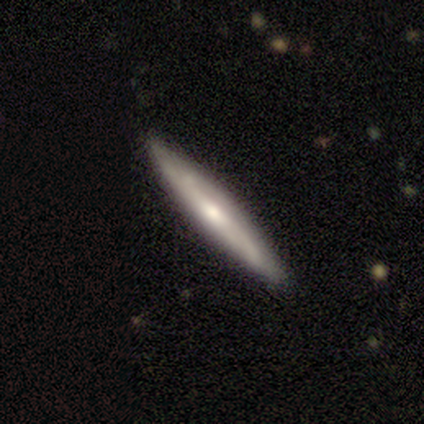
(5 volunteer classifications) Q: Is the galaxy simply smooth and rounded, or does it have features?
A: smooth — 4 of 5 (80%).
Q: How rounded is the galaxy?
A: cigar-shaped — 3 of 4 (75%).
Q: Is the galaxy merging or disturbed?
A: none — 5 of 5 (100%).